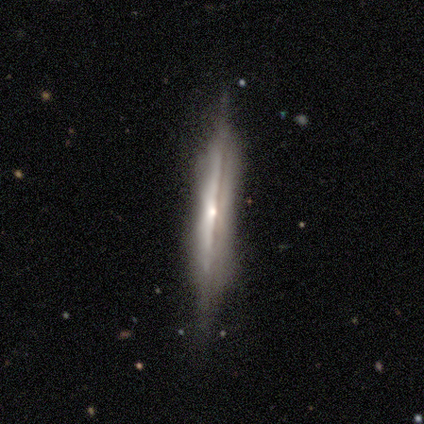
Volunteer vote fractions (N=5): This is clearly a featured or disk galaxy (100%). It is clearly viewed edge-on (100%). Edge-on bulge: likely rounded (60%). Merging: clearly none (100%).